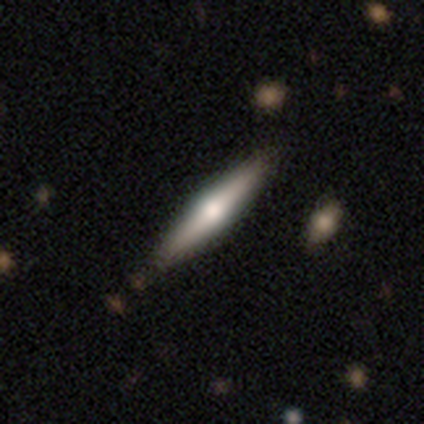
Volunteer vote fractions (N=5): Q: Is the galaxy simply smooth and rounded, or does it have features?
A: featured or disk — 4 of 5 (80%).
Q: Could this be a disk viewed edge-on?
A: yes — 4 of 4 (100%).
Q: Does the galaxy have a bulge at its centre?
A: rounded — 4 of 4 (100%).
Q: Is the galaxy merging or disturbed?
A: none — 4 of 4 (100%).